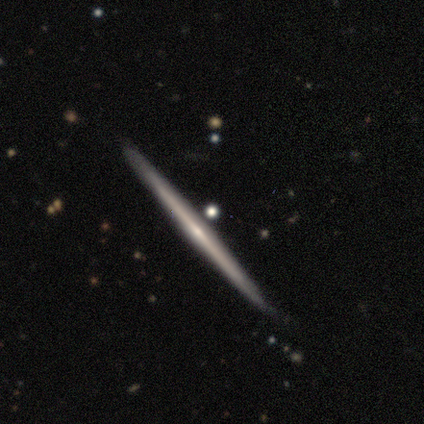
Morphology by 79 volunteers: Overall: featured or disk (78%). Edge-on disk: yes (100%). Edge-on bulge: none (63%; rounded 37%). Merging: none (90%).